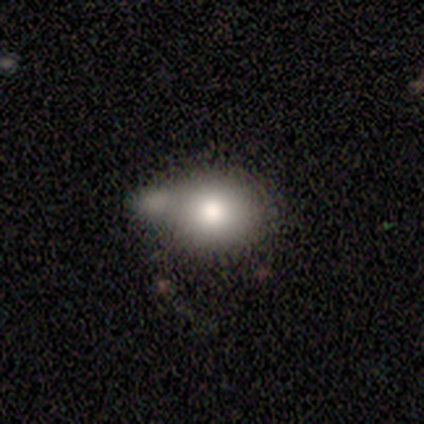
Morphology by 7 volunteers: Smooth or featured?
  - smooth: 86% *
  - featured or disk: 14%
  - star or artifact: 0%
How rounded?
  - in between: 50% *
  - round: 33%
  - cigar-shaped: 17%
Merging?
  - none: 29% * (tied)
  - minor disturbance: 29% * (tied)
  - merger: 29% * (tied)
  - major disturbance: 14%